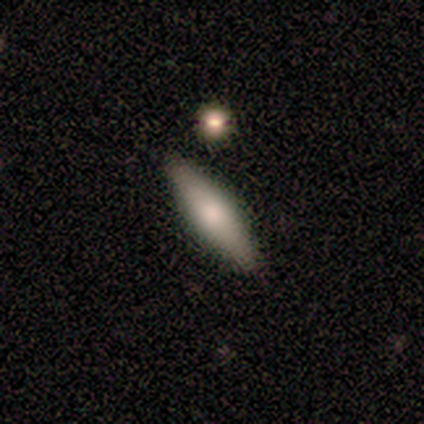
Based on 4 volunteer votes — smooth_or_featured: featured or disk (p=0.50) [alt: smooth p=0.25]
disk_edge_on: yes (p=1.00)
edge_on_bulge: rounded (p=1.00)
merging: none (p=1.00)